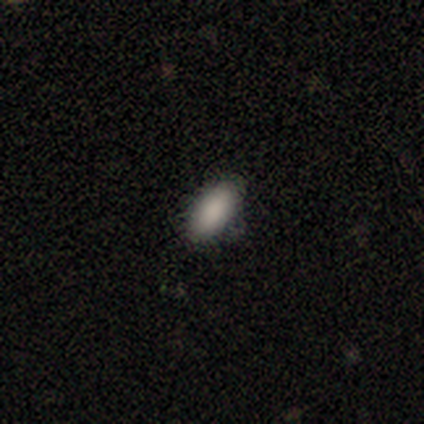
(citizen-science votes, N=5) Smooth or featured?
  - smooth: 80% *
  - star or artifact: 20%
  - featured or disk: 0%
How rounded?
  - in between: 100% *
  - round: 0%
  - cigar-shaped: 0%
Merging?
  - none: 75% *
  - minor disturbance: 25%
  - major disturbance: 0%
  - merger: 0%